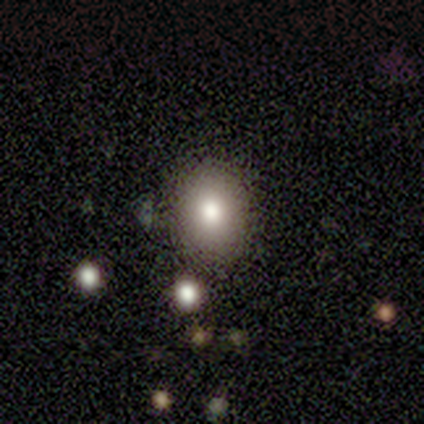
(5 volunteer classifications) Smooth or featured?
  - featured or disk: 60% *
  - smooth: 40%
  - star or artifact: 0%
Edge-on disk?
  - no: 100% *
  - yes: 0%
Bar?
  - no: 100% *
  - strong: 0%
  - weak: 0%
Spiral arms?
  - no: 67% *
  - yes: 33%
Bulge size?
  - moderate: 100% *
  - dominant: 0%
  - large: 0%
  - small: 0%
  - none: 0%
Merging?
  - none: 100% *
  - minor disturbance: 0%
  - major disturbance: 0%
  - merger: 0%